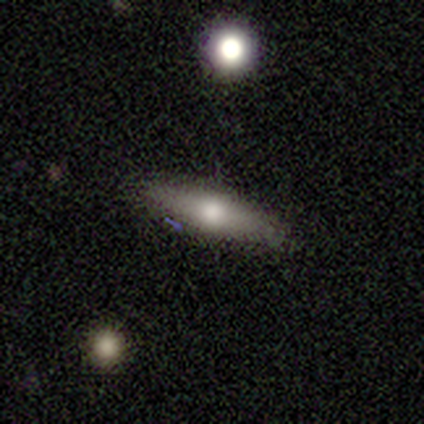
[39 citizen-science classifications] Smooth or featured: smooth — 56% (featured or disk — 38%)
How rounded: cigar-shaped — 77% (in between — 23%)
Merging: none — 89% (minor disturbance — 5%)